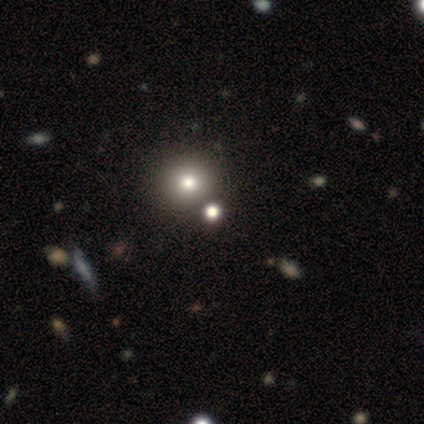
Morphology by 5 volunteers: Smooth or featured? 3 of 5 (60%) said smooth. How rounded? 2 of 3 (67%) said round. Merging? 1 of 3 (33%, tied with minor disturbance and merger) said none.